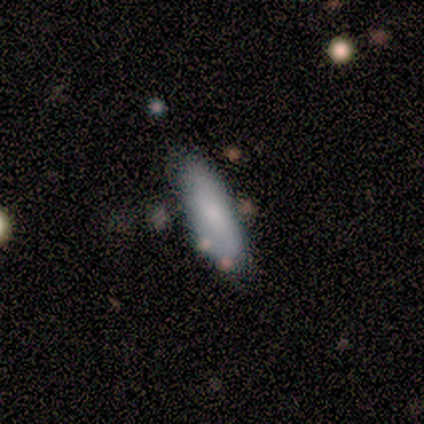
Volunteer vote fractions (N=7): A smooth galaxy with no disk features (86%) that is in between round and cigar-shaped (50%, tied with cigar-shaped). Merging: none (71%).